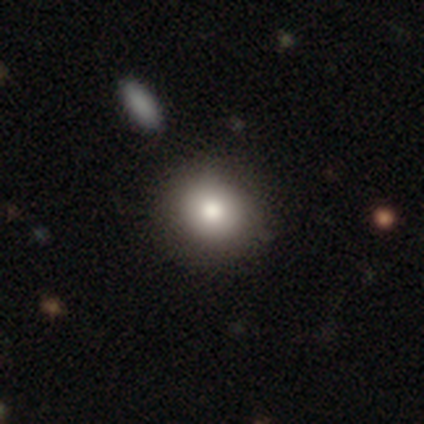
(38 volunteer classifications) This is clearly a smooth galaxy (84%). How rounded: clearly round (88%). Merging: possibly none (58%).